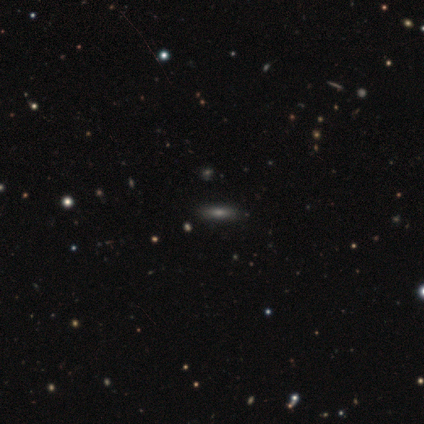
This is clearly a smooth galaxy (100%). How rounded: likely cigar-shaped (75%). Merging: clearly none (100%).